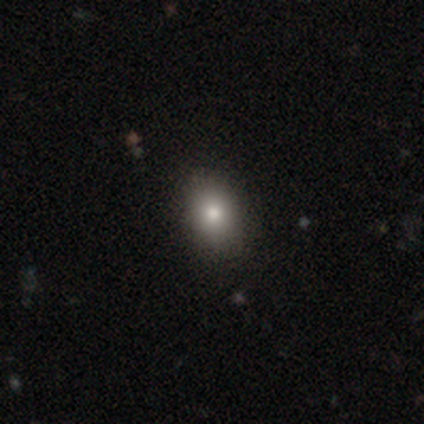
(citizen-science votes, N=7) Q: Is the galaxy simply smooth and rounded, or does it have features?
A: smooth — 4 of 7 (57%).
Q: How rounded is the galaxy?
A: round — 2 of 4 (50%, tied with in between).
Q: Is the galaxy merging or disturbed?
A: none — 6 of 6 (100%).